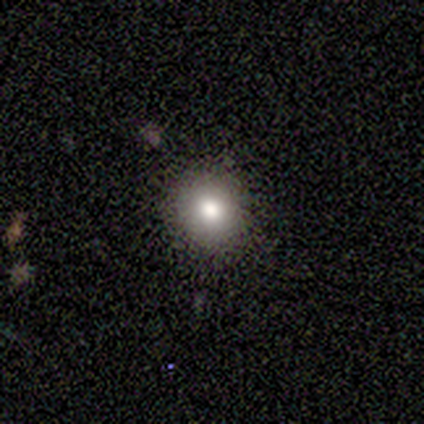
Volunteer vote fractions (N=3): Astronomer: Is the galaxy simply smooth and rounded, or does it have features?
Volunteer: smooth — 100%.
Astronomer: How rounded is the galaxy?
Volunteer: round — 100%.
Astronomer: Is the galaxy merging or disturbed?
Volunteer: none — 100%.